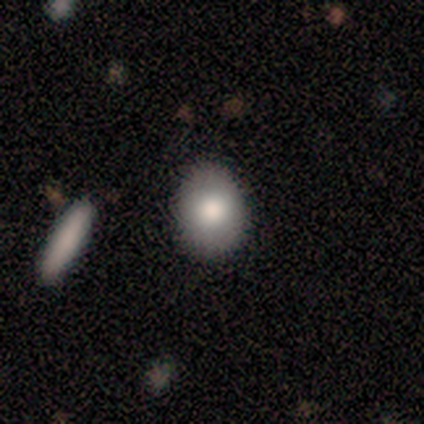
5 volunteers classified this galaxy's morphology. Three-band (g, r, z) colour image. It shows a smooth galaxy with no disk features (80%) that is in between round and cigar-shaped (75%). Merging: none (100%).